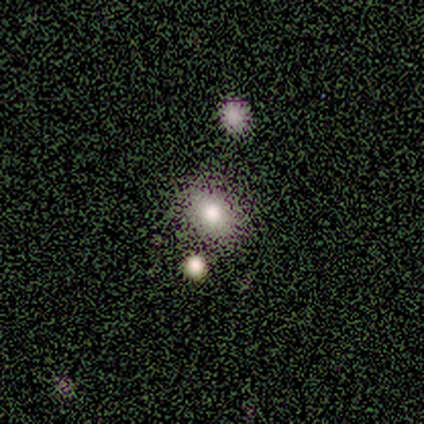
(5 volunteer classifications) Q: Smooth or featured?
A: smooth (60%); runner-up: featured or disk (20%)
Q: How rounded?
A: round (100%)
Q: Merging?
A: none (50%); runner-up: minor disturbance (25%)